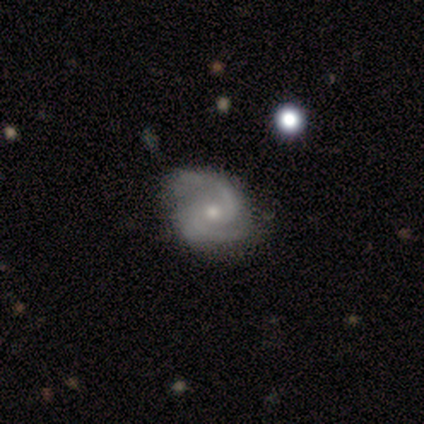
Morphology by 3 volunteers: Smooth or featured? 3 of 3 (100%) said featured or disk. Edge-on disk? 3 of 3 (100%) said no. Bar? 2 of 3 (67%) said weak. Spiral arms? 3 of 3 (100%) said yes. Spiral winding? 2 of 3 (67%) said loose. Spiral arm count? 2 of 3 (67%) said 2. Bulge size? 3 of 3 (100%) said small. Merging? 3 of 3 (100%) said none.